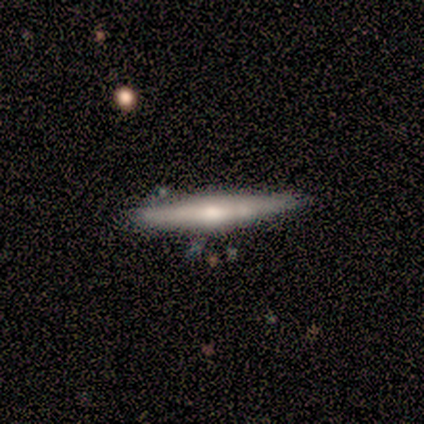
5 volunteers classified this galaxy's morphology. Smooth or featured?
  - smooth: 60% *
  - featured or disk: 40%
  - star or artifact: 0%
How rounded?
  - cigar-shaped: 100% *
  - round: 0%
  - in between: 0%
Merging?
  - none: 80% *
  - minor disturbance: 20%
  - major disturbance: 0%
  - merger: 0%